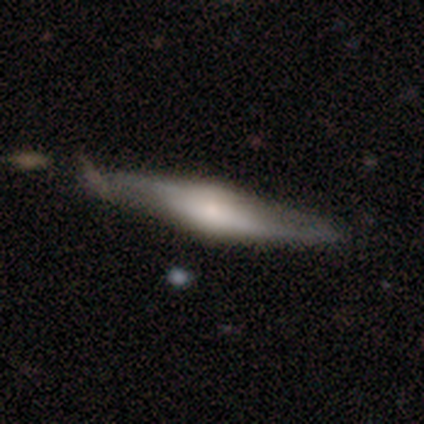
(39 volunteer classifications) Volunteers were most divided on "merging": none: 55%, minor disturbance: 34%, major disturbance: 11%, merger: 0%. More confident: edge-on bulge — rounded (88%); smooth or featured — featured or disk (79%); edge-on disk — yes (77%).